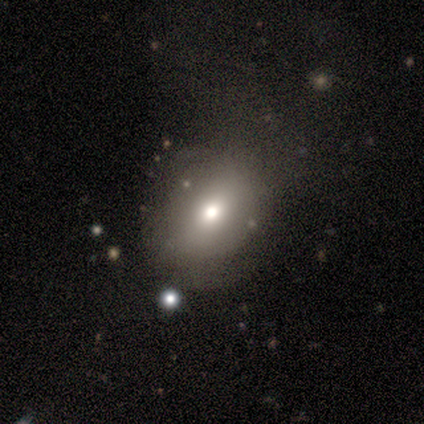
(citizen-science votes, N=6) This is clearly a smooth galaxy (83%). How rounded: clearly in between (100%). Merging: possibly major disturbance (50%).